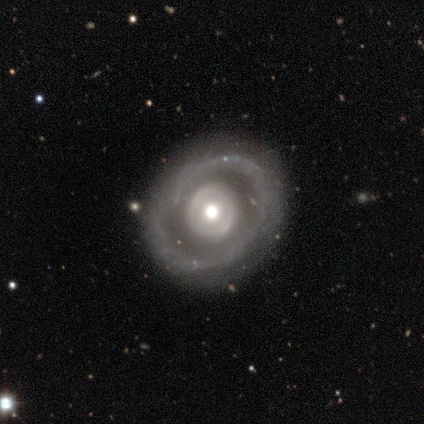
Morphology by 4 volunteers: smooth-or-featured: featured or disk: 75% | smooth: 25% | star or artifact: 0%
  disk-edge-on: no: 100% | yes: 0%
    bar: no: 67% | strong: 33% | weak: 0%
    has-spiral-arms: no: 67% | yes: 33%
    bulge-size: large: 33% (tied) | moderate: 33% (tied) | small: 33% (tied) | dominant: 0% | none: 0%
  merging: none: 75% | merger: 25% | minor disturbance: 0% | major disturbance: 0%